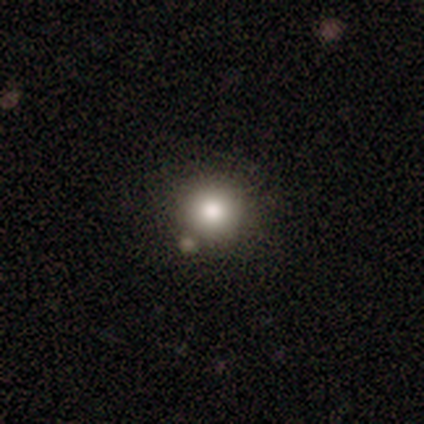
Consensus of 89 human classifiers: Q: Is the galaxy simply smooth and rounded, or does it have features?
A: smooth — 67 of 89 (75%).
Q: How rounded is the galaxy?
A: round — 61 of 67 (91%).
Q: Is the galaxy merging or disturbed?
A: none — 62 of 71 (87%).